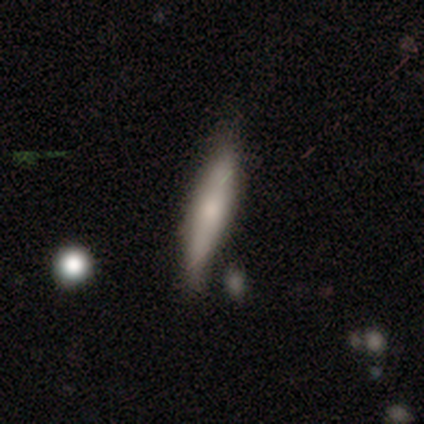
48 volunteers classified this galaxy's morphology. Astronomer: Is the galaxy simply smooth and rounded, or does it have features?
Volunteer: smooth — 62%.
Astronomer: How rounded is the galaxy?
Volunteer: cigar-shaped — 93%.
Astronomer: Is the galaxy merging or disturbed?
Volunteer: none — 68%.